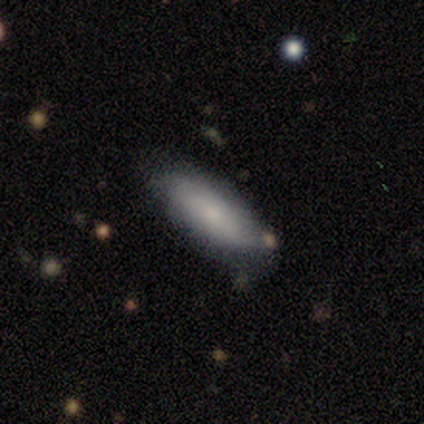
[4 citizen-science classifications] A smooth galaxy with no disk features (75%) that is in between round and cigar-shaped (67%).

Vote fractions:
- Smooth or featured? smooth: 75% / featured or disk: 25% / star or artifact: 0%
- How rounded? in between: 67% / cigar-shaped: 33% / round: 0%
- Merging? minor disturbance: 75% / none: 25% / major disturbance: 0% / merger: 0%